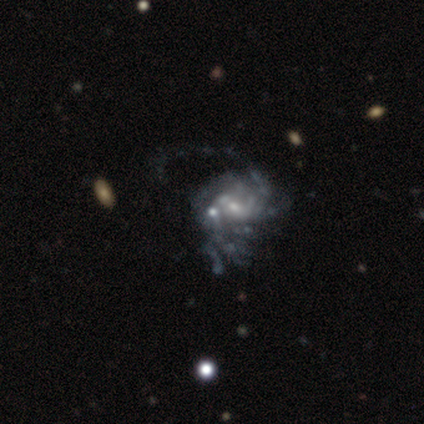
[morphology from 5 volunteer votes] Smooth or featured?
  - featured or disk: 100% *
  - smooth: 0%
  - star or artifact: 0%
Edge-on disk?
  - no: 100% *
  - yes: 0%
Bar?
  - no: 100% *
  - strong: 0%
  - weak: 0%
Spiral arms?
  - yes: 60% *
  - no: 40%
Spiral winding?
  - tight: 33% * (tied)
  - medium: 33% * (tied)
  - loose: 33% * (tied)
Spiral arm count?
  - 1: 33% * (tied)
  - more than 4: 33% * (tied)
  - can't tell: 33% * (tied)
  - 2: 0%
  - 3: 0%
  - 4: 0%
Bulge size?
  - moderate: 60% *
  - small: 20%
  - none: 20%
  - dominant: 0%
  - large: 0%
Merging?
  - major disturbance: 80% *
  - merger: 20%
  - none: 0%
  - minor disturbance: 0%